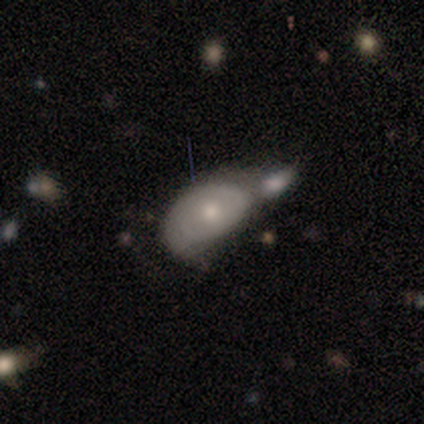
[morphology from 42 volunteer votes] Smooth or featured? smooth (57%)
How rounded? in between (83%)
Merging? merger (72%)